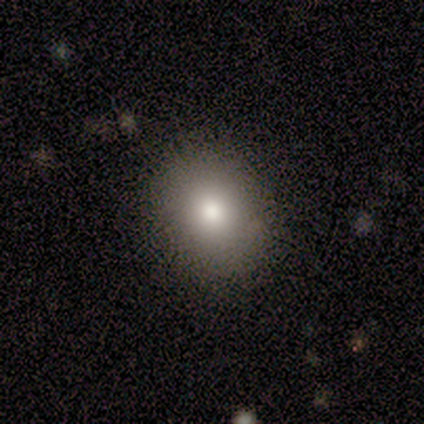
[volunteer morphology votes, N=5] featured or disk 60%, smooth 40%, star or artifact 0%. Down the decision tree: edge-on disk — no (100%); bar — no (100%); spiral arms — no (100%); bulge size — large (67%); merging — none (100%).